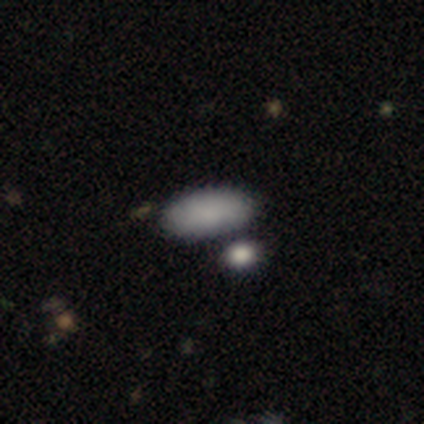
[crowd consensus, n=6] Smooth or featured? 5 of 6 (83%) said smooth. How rounded? 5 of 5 (100%) said in between. Merging? 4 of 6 (67%) said none.